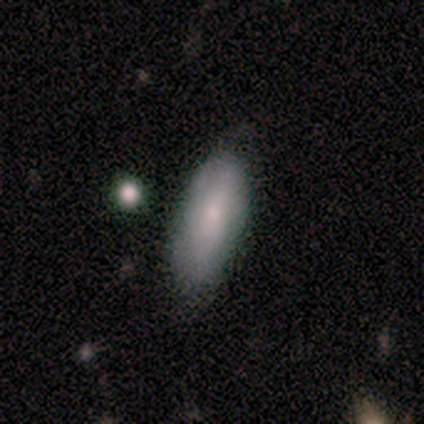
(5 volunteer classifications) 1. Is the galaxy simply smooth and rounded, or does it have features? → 100% smooth, 0% featured or disk, 0% star or artifact.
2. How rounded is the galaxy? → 80% in between, 20% cigar-shaped, 0% round.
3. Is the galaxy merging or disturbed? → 80% none, 20% minor disturbance, 0% major disturbance, 0% merger.